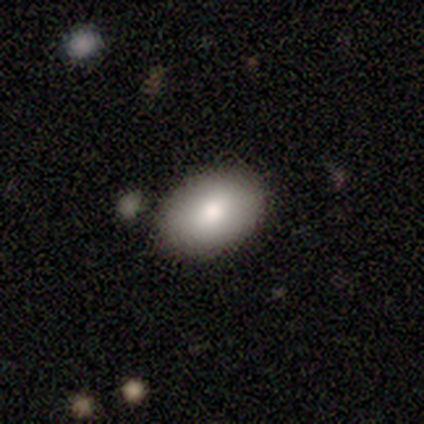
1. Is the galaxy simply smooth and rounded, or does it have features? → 80% smooth, 20% star or artifact, 0% featured or disk.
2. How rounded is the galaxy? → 100% in between, 0% round, 0% cigar-shaped.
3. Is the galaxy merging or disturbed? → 75% none, 25% minor disturbance, 0% major disturbance, 0% merger.